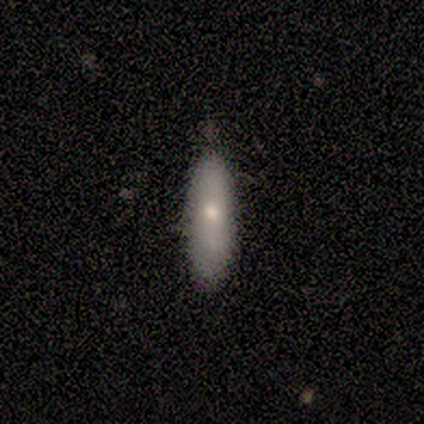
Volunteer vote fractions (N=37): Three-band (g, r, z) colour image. It shows a smooth galaxy with no disk features (70%) that is cigar-shaped (65%). Merging: none (72%).